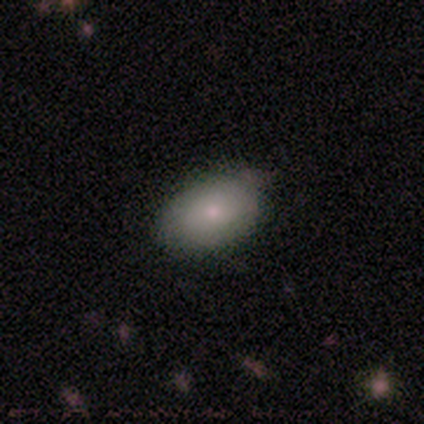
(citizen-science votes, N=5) smooth 80%, featured or disk 20%, star or artifact 0%. Down the decision tree: how rounded — in between (100%); merging — none (80%).